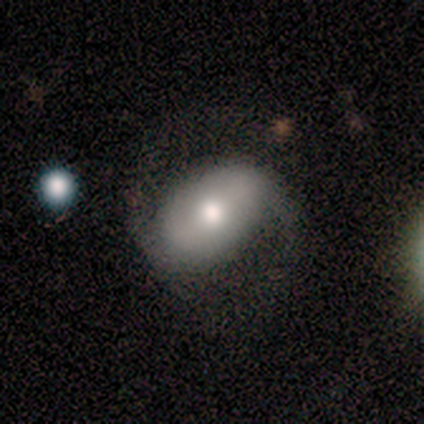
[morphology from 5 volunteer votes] Smooth or featured?
  - smooth: 60% *
  - featured or disk: 40%
  - star or artifact: 0%
How rounded?
  - in between: 100% *
  - round: 0%
  - cigar-shaped: 0%
Merging?
  - none: 40% * (tied)
  - major disturbance: 40% * (tied)
  - minor disturbance: 20%
  - merger: 0%